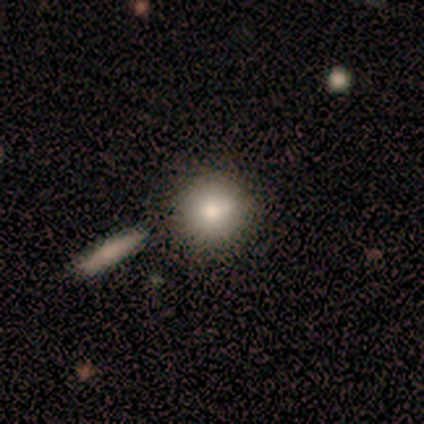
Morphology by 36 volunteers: smooth_or_featured: smooth (p=0.75) [alt: featured or disk p=0.17]
how_rounded: round (p=1.00)
merging: none (p=0.79) [alt: merger p=0.15]